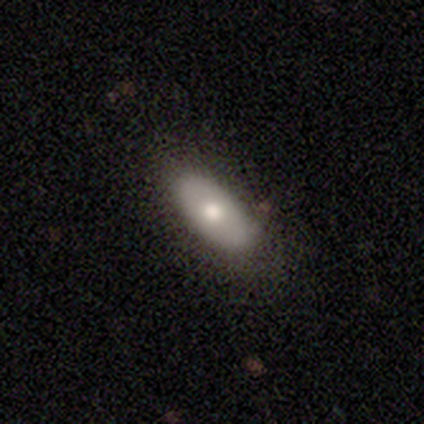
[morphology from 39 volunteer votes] Volunteers were most divided on "smooth or featured": smooth: 79%, featured or disk: 21%, star or artifact: 0%. More confident: how rounded — in between (90%); merging — none (85%).